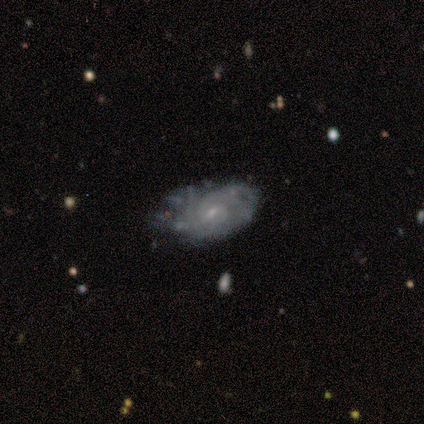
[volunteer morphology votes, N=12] This appears to be a featured or disk galaxy (83%) with a weak bar (89%), 2 (44%, tied with can't tell) tight (56%) spiral arms (100%) and a small central bulge (100%). Merging: none (33%, tied with minor disturbance and major disturbance).